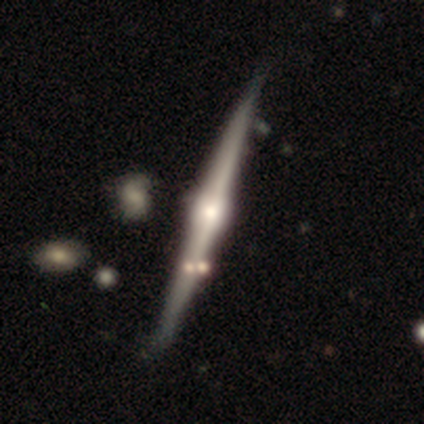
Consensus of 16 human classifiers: A featured or disk galaxy (75%) viewed edge-on (100%) with a rounded central bulge (83%).

Vote fractions:
- Smooth or featured? featured or disk: 75% / smooth: 19% / star or artifact: 6%
- Edge-on disk? yes: 100% / no: 0%
- Edge-on bulge? rounded: 83% / boxy: 17% / none: 0%
- Merging? none: 67% / minor disturbance: 27% / merger: 7% / major disturbance: 0%